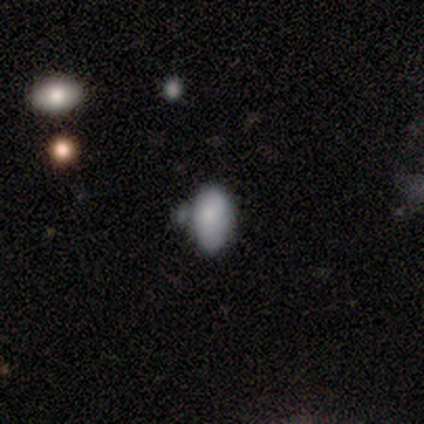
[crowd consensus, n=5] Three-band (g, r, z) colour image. It shows a smooth galaxy with no disk features (100%) that is in between round and cigar-shaped (100%). Merging: minor disturbance (40%, tied with merger).